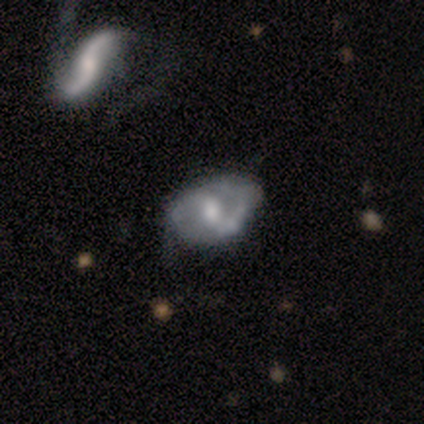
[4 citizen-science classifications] smooth_or_featured: featured or disk (p=1.00)
disk_edge_on: no (p=1.00)
bar: strong (p=0.75) [alt: weak p=0.25]
has_spiral_arms: yes (p=1.00)
spiral_winding: tight (p=0.75) [alt: medium p=0.25]
spiral_arm_count: 2 (p=1.00)
bulge_size: moderate (p=0.50) [alt: large p=0.25]
merging: none (p=0.50) [alt: minor disturbance p=0.25]